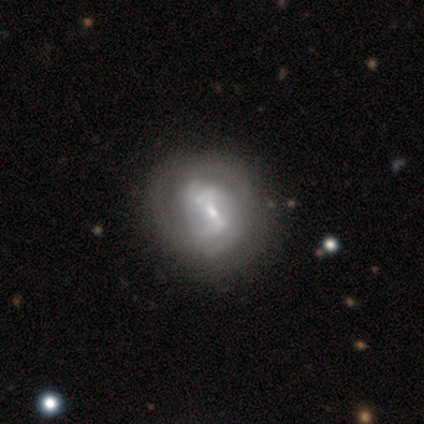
Volunteers were most divided on "bar": strong: 67%, weak: 33%, no: 0%. More confident: edge-on disk — no (100%); spiral arms — yes (100%); merging — none (100%); smooth or featured — featured or disk (75%); spiral winding — medium (67%); spiral arm count — 2 (67%); bulge size — moderate (67%).